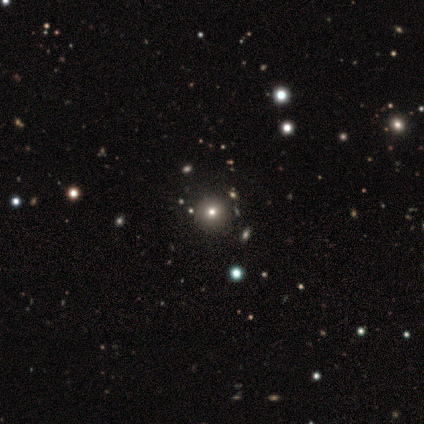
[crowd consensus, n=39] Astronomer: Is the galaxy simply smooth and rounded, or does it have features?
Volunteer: smooth — 46% (runner-up: star or artifact, 38%).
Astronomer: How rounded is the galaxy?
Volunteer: round — 94%.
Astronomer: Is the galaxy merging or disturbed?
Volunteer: none — 88%.